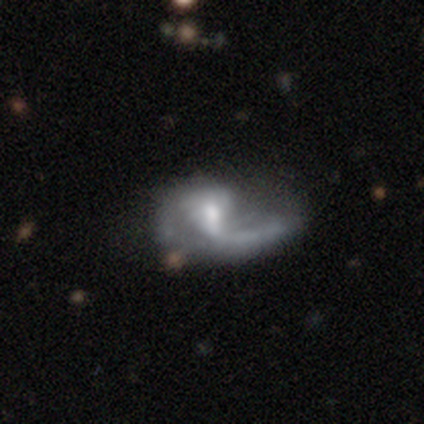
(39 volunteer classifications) Smooth or featured? 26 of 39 (67%) said featured or disk. Edge-on disk? 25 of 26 (96%) said no. Bar? 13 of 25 (52%) said weak. Spiral arms? 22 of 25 (88%) said yes. Spiral winding? 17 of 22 (77%) said loose. Spiral arm count? 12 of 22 (55%) said 1. Bulge size? 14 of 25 (56%) said moderate. Merging? 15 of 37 (41%) said major disturbance.